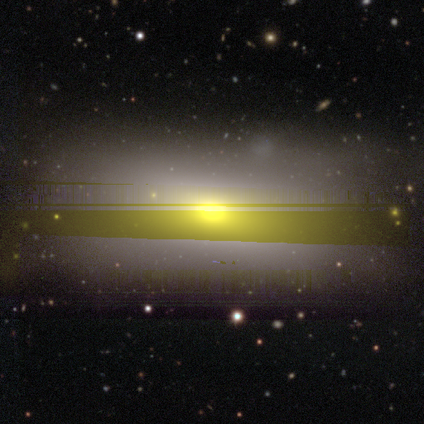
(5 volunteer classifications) Morphology: type=smooth (40%, tied with star or artifact); roundness=round (50%, tied with in between); merging=none (67%).